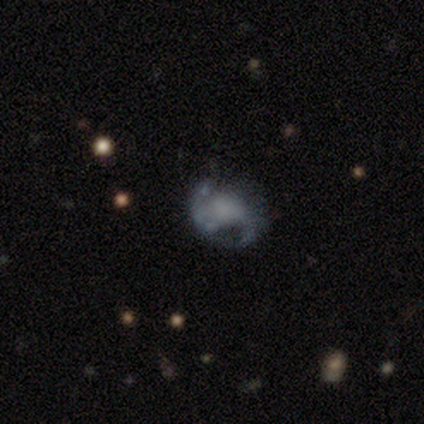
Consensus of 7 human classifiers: A featured or disk galaxy (57%) with no bar (100%), 2 (100%) medium (50%, tied with loose) spiral arms (50%, tied with no) and no central bulge (75%). Merging: major disturbance (67%).